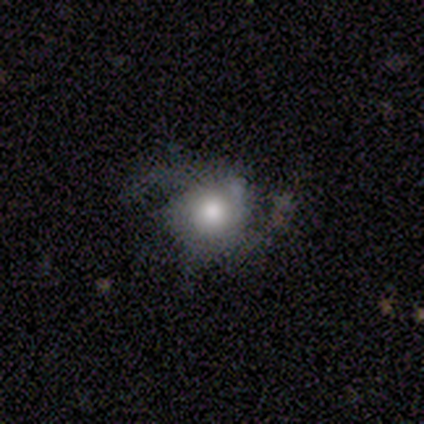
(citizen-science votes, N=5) A featured or disk galaxy (60%) with a weak bar (50%, tied with no), 2 (50%, tied with 3) medium (100%) spiral arms (100%) and a dominant central bulge (50%, tied with moderate).

Vote fractions:
- Smooth or featured? featured or disk: 60% / smooth: 20% / star or artifact: 20%
- Edge-on disk? no: 67% / yes: 33%
- Bar? weak: 50% (tied) / no: 50% (tied) / strong: 0%
- Spiral arms? yes: 100% / no: 0%
- Spiral winding? medium: 100% / tight: 0% / loose: 0%
- Spiral arm count? 2: 50% (tied) / 3: 50% (tied) / 1: 0% / 4: 0% / more than 4: 0% / can't tell: 0%
- Bulge size? dominant: 50% (tied) / moderate: 50% (tied) / large: 0% / small: 0% / none: 0%
- Merging? none: 50% (tied) / major disturbance: 50% (tied) / minor disturbance: 0% / merger: 0%